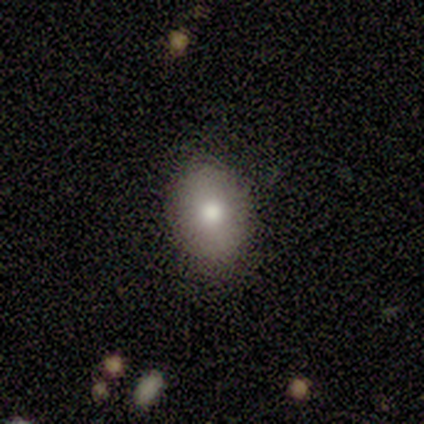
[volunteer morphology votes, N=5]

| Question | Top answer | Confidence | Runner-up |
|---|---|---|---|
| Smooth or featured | smooth | 100% | — |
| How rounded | in between | 80% | round (20%) |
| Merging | none | 80% | minor disturbance (20%) |